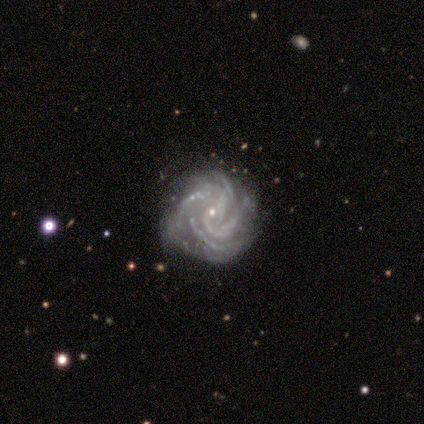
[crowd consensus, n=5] Smooth or featured? 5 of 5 (100%) said featured or disk. Edge-on disk? 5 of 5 (100%) said no. Bar? 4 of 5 (80%) said no. Spiral arms? 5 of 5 (100%) said yes. Spiral winding? 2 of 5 (40%, tied with medium) said tight. Spiral arm count? 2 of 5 (40%) said can't tell. Bulge size? 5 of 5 (100%) said small. Merging? 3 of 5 (60%) said none.